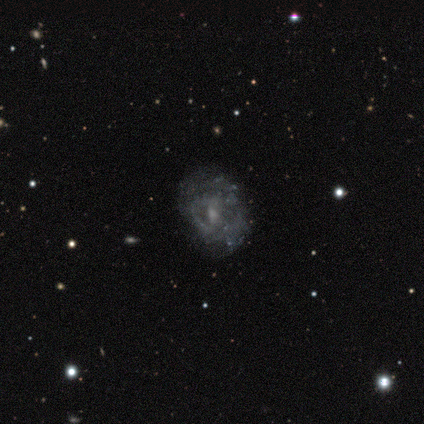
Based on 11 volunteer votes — smooth-or-featured: featured or disk: 64% | smooth: 18% | star or artifact: 18%
  disk-edge-on: no: 100% | yes: 0%
    bar: no: 57% | weak: 43% | strong: 0%
    has-spiral-arms: yes: 71% | no: 29%
      spiral-winding: loose: 60% | tight: 20% | medium: 20%
      spiral-arm-count: can't tell: 60% | 2: 40% | 1: 0% | 3: 0% | 4: 0% | more than 4: 0%
    bulge-size: small: 57% | moderate: 29% | none: 14% | dominant: 0% | large: 0%
  merging: none: 78% | minor disturbance: 22% | major disturbance: 0% | merger: 0%